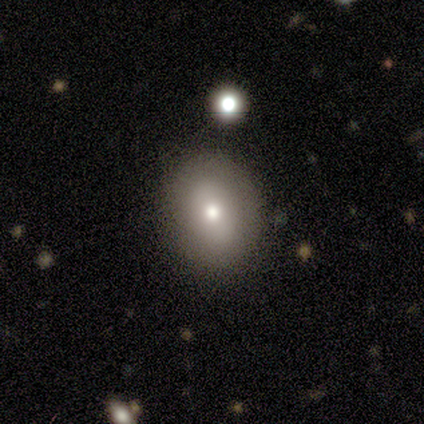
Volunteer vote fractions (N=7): Volunteers were most divided on "smooth or featured": smooth: 71%, featured or disk: 14%, star or artifact: 14%. More confident: merging — none (83%); how rounded — in between (80%).